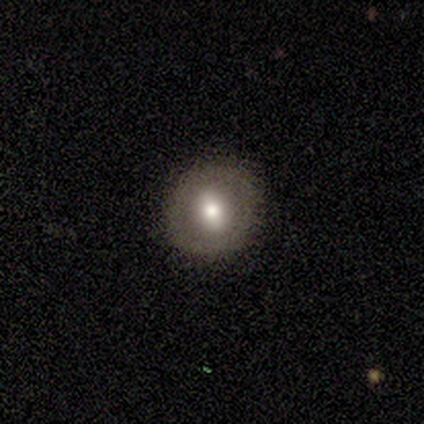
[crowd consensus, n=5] Q: Smooth or featured?
A: featured or disk (60%); runner-up: smooth (20%)
Q: Edge-on disk?
A: no (100%)
Q: Bar?
A: no (67%); runner-up: strong (33%)
Q: Spiral arms?
A: no (100%)
Q: Bulge size?
A: moderate (67%); runner-up: large (33%)
Q: Merging?
A: none (100%)